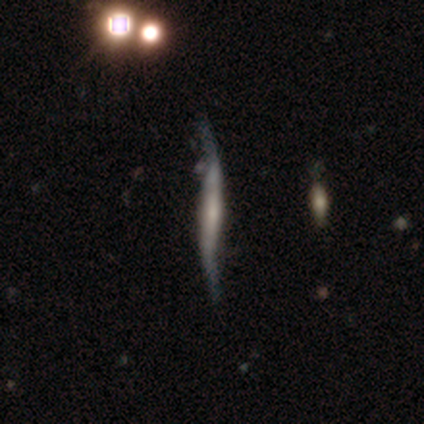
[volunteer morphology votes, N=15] smooth-or-featured: featured or disk: 80% | star or artifact: 13% | smooth: 7%
  disk-edge-on: yes: 67% | no: 33%
    edge-on-bulge: none: 100% | boxy: 0% | rounded: 0%
  merging: none: 69% | major disturbance: 23% | minor disturbance: 8% | merger: 0%